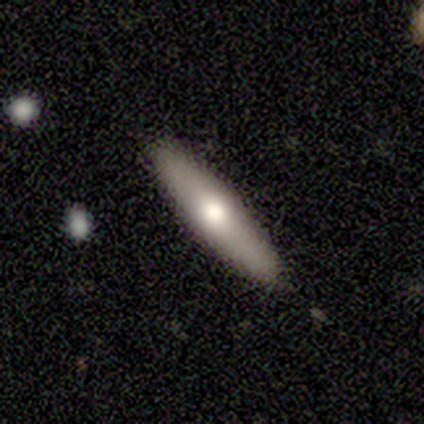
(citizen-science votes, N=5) Smooth or featured?
  - smooth: 60% *
  - featured or disk: 40%
  - star or artifact: 0%
How rounded?
  - cigar-shaped: 100% *
  - round: 0%
  - in between: 0%
Merging?
  - none: 80% *
  - merger: 20%
  - minor disturbance: 0%
  - major disturbance: 0%